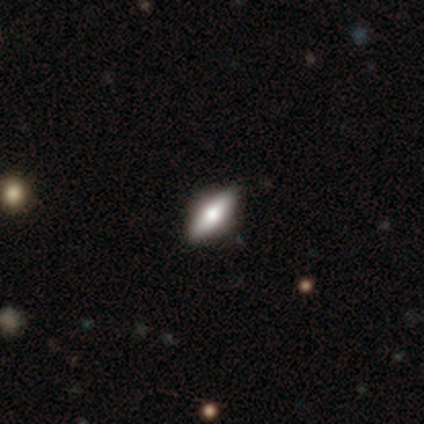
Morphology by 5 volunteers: Volunteers were most divided on "how rounded": cigar-shaped: 75%, in between: 25%, round: 0%. More confident: smooth or featured — smooth (80%); merging — none (80%).